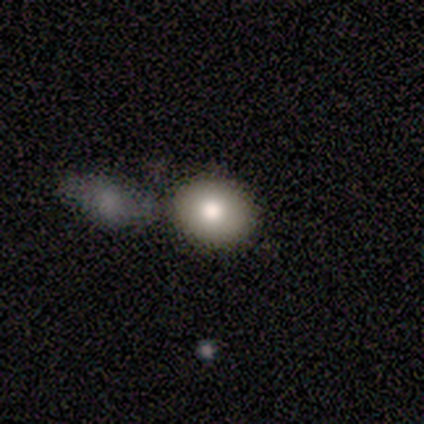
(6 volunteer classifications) Volunteers were most divided on "merging": merger: 60%, none: 20%, minor disturbance: 20%, major disturbance: 0%. More confident: how rounded — round (100%); smooth or featured — smooth (67%).